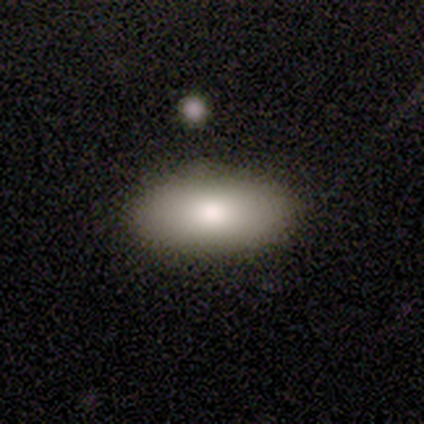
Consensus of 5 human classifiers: smooth 80%, featured or disk 20%, star or artifact 0%. Down the decision tree: how rounded — in between (50%); merging — none (100%).